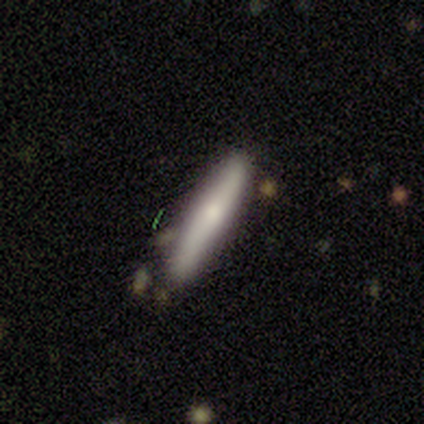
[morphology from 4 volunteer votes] Smooth or featured? smooth (100%)
How rounded? cigar-shaped (100%)
Merging? none (75%)